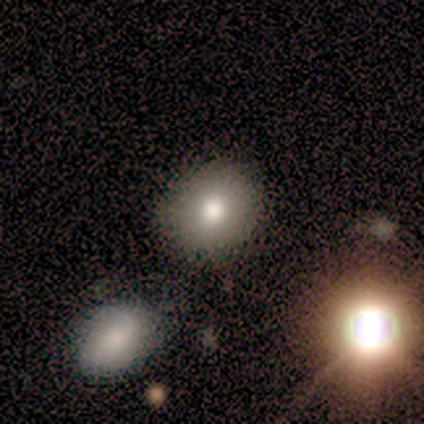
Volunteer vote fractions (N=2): smooth-or-featured: featured or disk: 100% | smooth: 0% | star or artifact: 0%
  disk-edge-on: no: 100% | yes: 0%
    bar: no: 100% | strong: 0% | weak: 0%
    has-spiral-arms: no: 100% | yes: 0%
    bulge-size: large: 50% (tied) | small: 50% (tied) | dominant: 0% | moderate: 0% | none: 0%
  merging: none: 50% (tied) | merger: 50% (tied) | minor disturbance: 0% | major disturbance: 0%